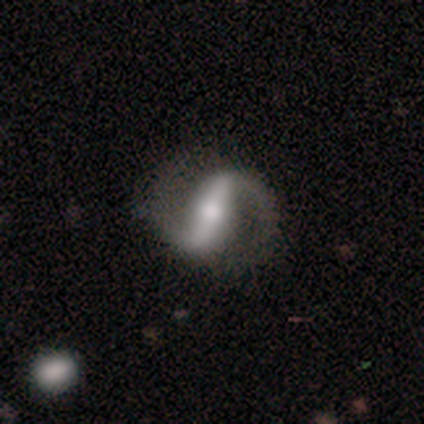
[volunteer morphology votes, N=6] Smooth or featured? featured or disk (100%)
Edge-on disk? no (100%)
Bar? strong (67%)
Spiral arms? yes (100%)
Spiral winding? medium (67%)
Spiral arm count? 2 (100%)
Bulge size? moderate (67%)
Merging? none (100%)